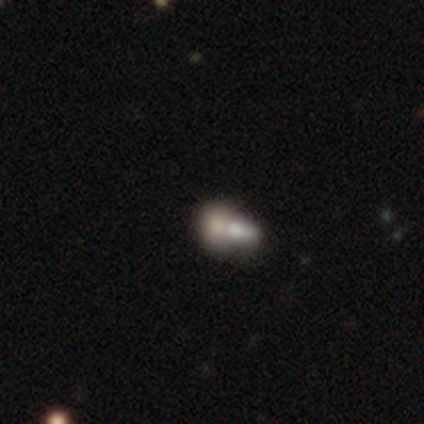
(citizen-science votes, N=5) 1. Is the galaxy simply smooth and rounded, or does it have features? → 40% smooth (tied), 40% featured or disk (tied), 20% star or artifact.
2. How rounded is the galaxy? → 100% in between, 0% round, 0% cigar-shaped.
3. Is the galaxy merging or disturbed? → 75% merger, 25% major disturbance, 0% none, 0% minor disturbance.